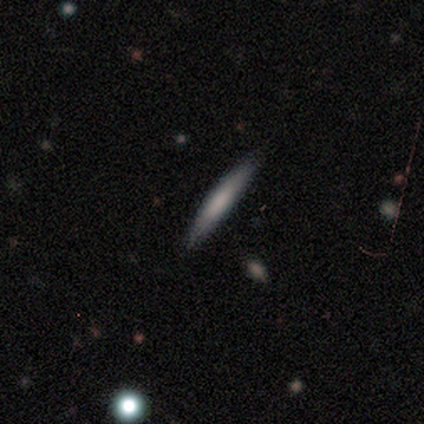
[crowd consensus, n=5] This appears to be a smooth galaxy with no disk features (100%) that is cigar-shaped (100%). Merging: none (60%).